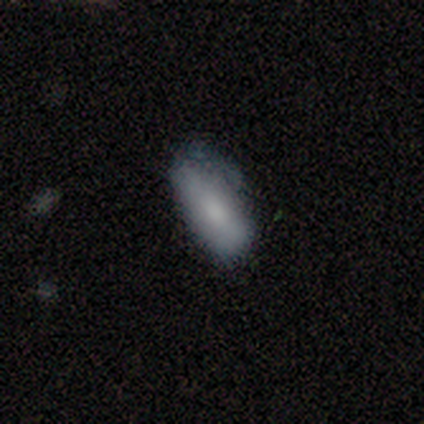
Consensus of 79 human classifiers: smooth_or_featured: smooth (p=0.82) [alt: featured or disk p=0.18]
how_rounded: in between (p=0.83) [alt: cigar-shaped p=0.15]
merging: none (p=0.25) [tied with: minor disturbance p=0.25]